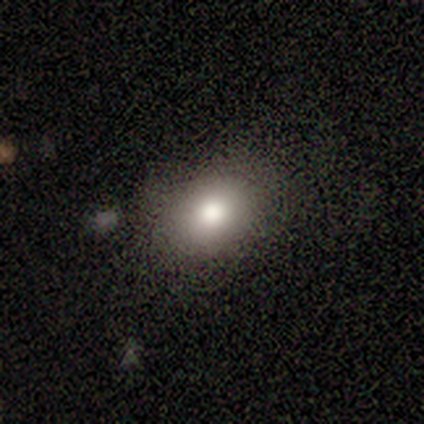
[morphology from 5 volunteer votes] Volunteers were most divided on "how rounded": in between: 80%, round: 20%, cigar-shaped: 0%. More confident: smooth or featured — smooth (100%); merging — none (100%).